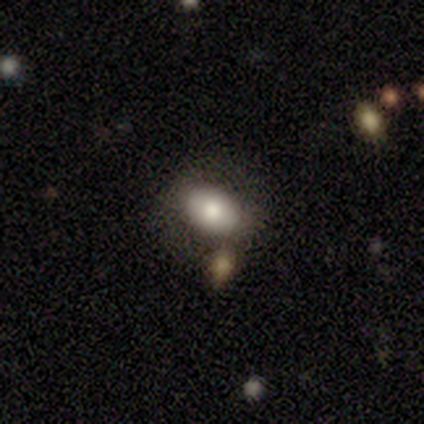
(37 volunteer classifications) smooth-or-featured: smooth: 78% | featured or disk: 14% | star or artifact: 8%
  how-rounded: in between: 97% | round: 3% | cigar-shaped: 0%
  merging: none: 76% | minor disturbance: 18% | major disturbance: 3% | merger: 3%